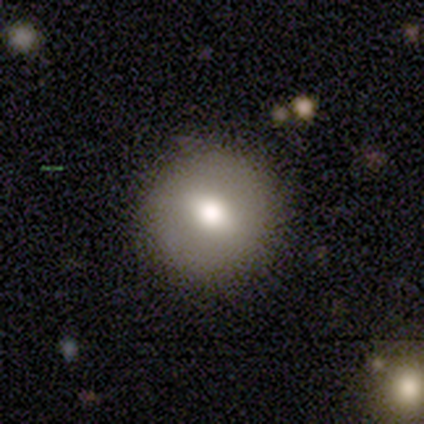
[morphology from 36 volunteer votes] smooth-or-featured: smooth: 56% | featured or disk: 28% | star or artifact: 17%
  how-rounded: round: 100% | in between: 0% | cigar-shaped: 0%
  merging: none: 90% | minor disturbance: 7% | major disturbance: 3% | merger: 0%